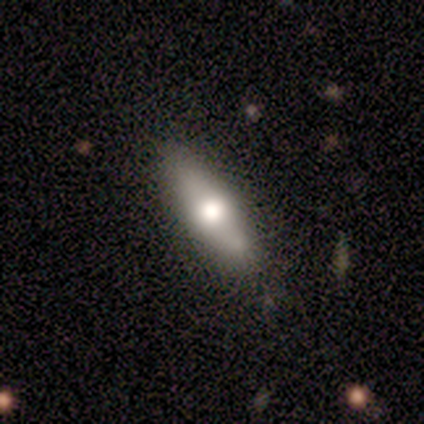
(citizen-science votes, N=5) A featured or disk galaxy (60%) with no bar (100%), no spiral arms (100%) and a large central bulge (100%). Merging: none (60%).